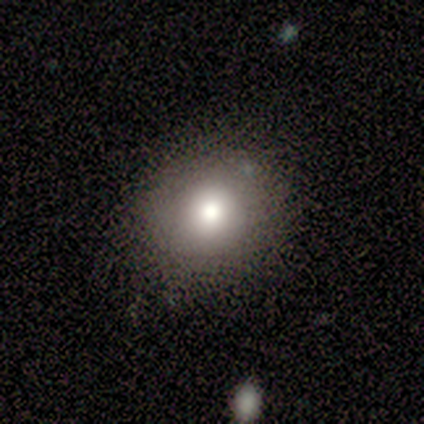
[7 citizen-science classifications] smooth-or-featured: smooth: 86% | star or artifact: 14% | featured or disk: 0%
  how-rounded: round: 100% | in between: 0% | cigar-shaped: 0%
  merging: none: 100% | minor disturbance: 0% | major disturbance: 0% | merger: 0%